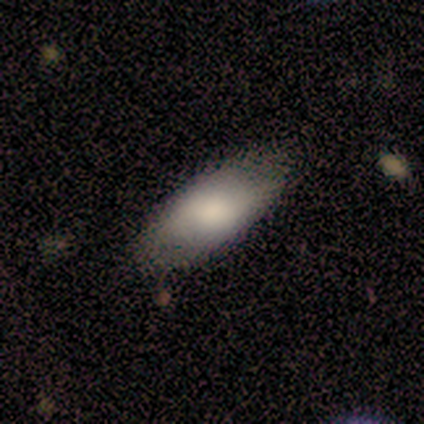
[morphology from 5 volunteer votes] Smooth or featured? smooth (80%)
How rounded? in between (100%)
Merging? none (100%)